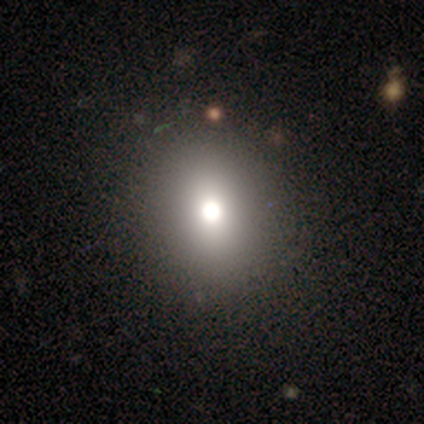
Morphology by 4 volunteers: Smooth or featured: star or artifact — 75% (smooth — 25%)